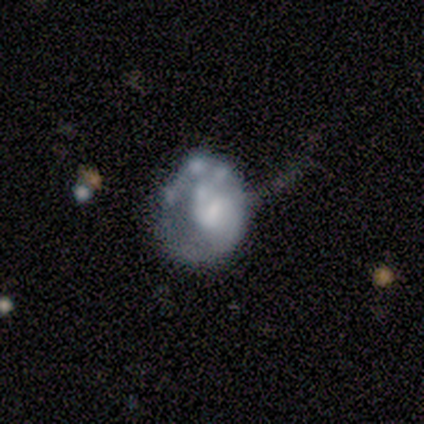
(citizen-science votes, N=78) Smooth or featured? 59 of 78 (76%) said featured or disk. Edge-on disk? 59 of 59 (100%) said no. Bar? 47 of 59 (80%) said no. Spiral arms? 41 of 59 (69%) said no. Bulge size? 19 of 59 (32%) said small. Merging? 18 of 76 (24%) said major disturbance.